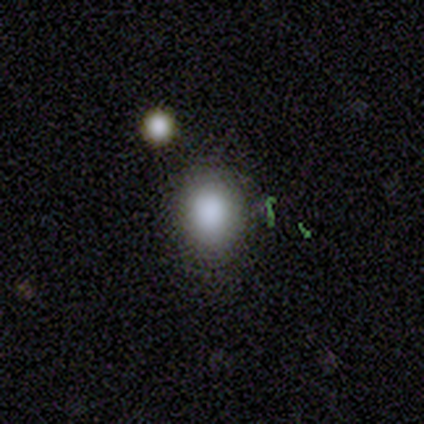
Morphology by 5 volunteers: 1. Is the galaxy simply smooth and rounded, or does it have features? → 60% smooth, 40% star or artifact, 0% featured or disk.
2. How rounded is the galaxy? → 100% round, 0% in between, 0% cigar-shaped.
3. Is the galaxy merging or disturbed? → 100% none, 0% minor disturbance, 0% major disturbance, 0% merger.